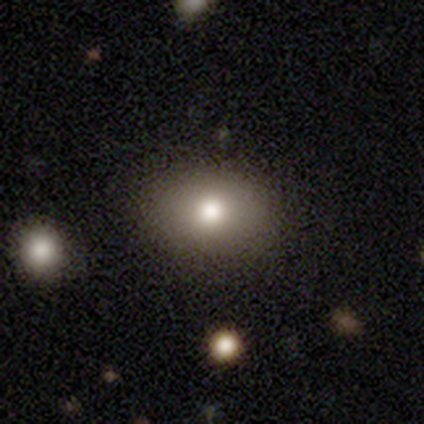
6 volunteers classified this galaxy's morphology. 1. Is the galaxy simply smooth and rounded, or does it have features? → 50% smooth, 33% featured or disk, 17% star or artifact.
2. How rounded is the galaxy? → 67% in between, 33% round, 0% cigar-shaped.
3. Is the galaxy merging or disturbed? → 100% none, 0% minor disturbance, 0% major disturbance, 0% merger.